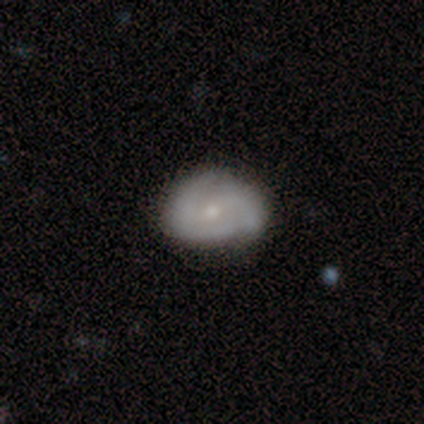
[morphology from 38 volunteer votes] Volunteers were most divided on "bar" (2-way tie): weak: 50%, no: 50%, strong: 0%. More confident: edge-on disk — no (100%); spiral arm count — 2 (69%); spiral arms — yes (65%); bulge size — small (65%); merging — none (62%); spiral winding — tight (62%); smooth or featured — featured or disk (53%).